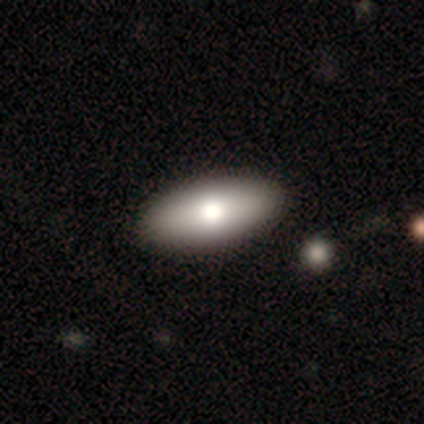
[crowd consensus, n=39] Smooth or featured?
  - smooth: 90% *
  - featured or disk: 8%
  - star or artifact: 3%
How rounded?
  - in between: 86% *
  - cigar-shaped: 9%
  - round: 6%
Merging?
  - none: 84% *
  - minor disturbance: 0%
  - major disturbance: 0%
  - merger: 0%